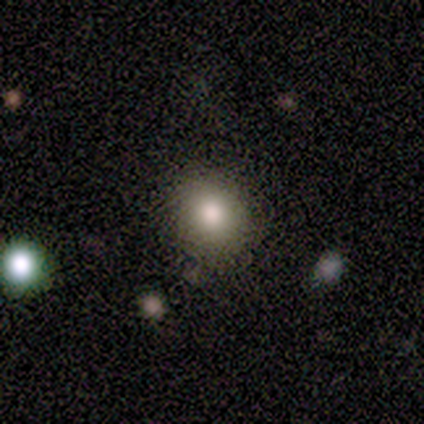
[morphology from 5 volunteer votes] This appears to be a smooth galaxy with no disk features (80%) that is round (75%). Merging: none (100%).